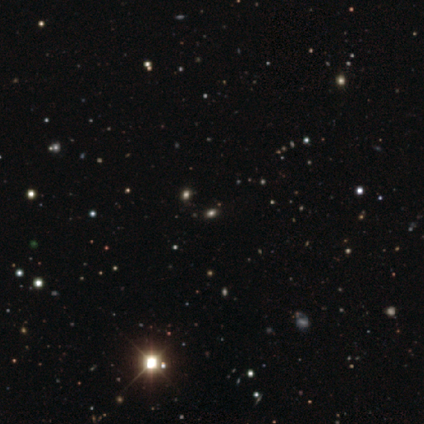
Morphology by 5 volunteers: Volunteers were most divided on "smooth or featured": star or artifact: 80%, smooth: 20%, featured or disk: 0%.